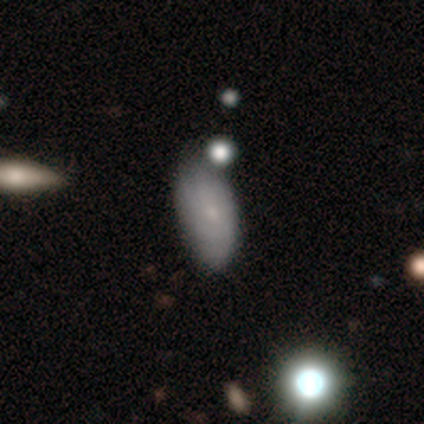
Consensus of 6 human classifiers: Smooth or featured? 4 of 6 (67%) said smooth. How rounded? 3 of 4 (75%) said in between. Merging? 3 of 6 (50%) said minor disturbance.